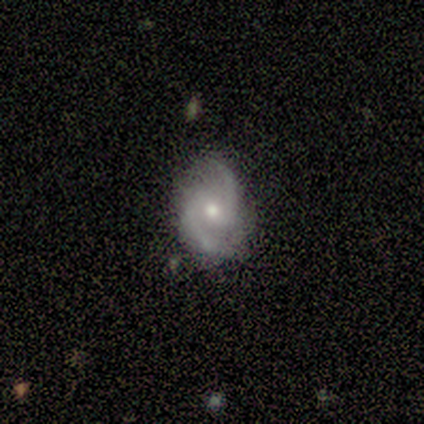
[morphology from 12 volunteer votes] A featured or disk galaxy (100%) with no bar (83%), 2 (83%) medium (83%) spiral arms (100%) and a moderate central bulge (50%, tied with small). Merging: none (83%).